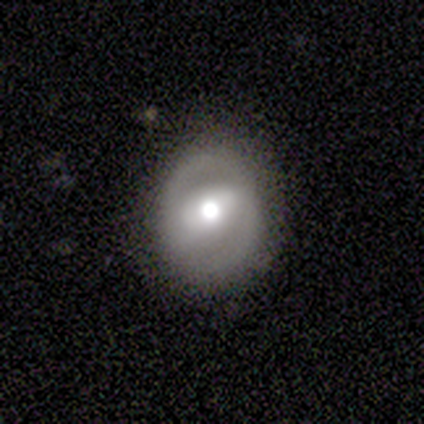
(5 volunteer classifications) Overall: featured or disk (60%; smooth 20%). Edge-on disk: no (67%; yes 33%). Bar: strong (50%, tied with weak). Spiral arms: no (100%). Bulge size: large (50%, tied with moderate). Merging: none (75%).